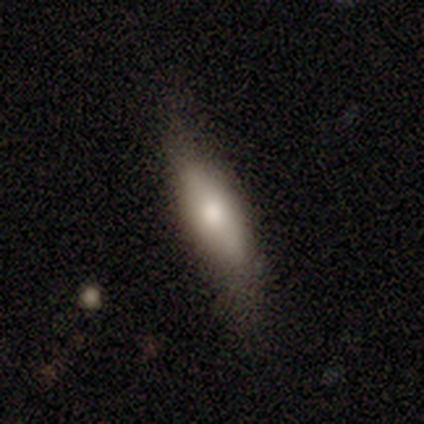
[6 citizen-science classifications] Volunteers were most divided on "smooth or featured" (3-way tie): smooth: 33%, featured or disk: 33%, star or artifact: 33%. More confident: how rounded — cigar-shaped (100%); merging — none (75%).